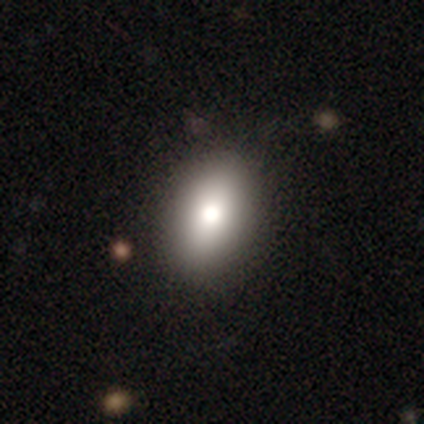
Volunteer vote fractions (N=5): Q: Smooth or featured?
A: smooth (60%); runner-up: featured or disk (20%)
Q: How rounded?
A: in between (67%); runner-up: round (33%)
Q: Merging?
A: none (100%)